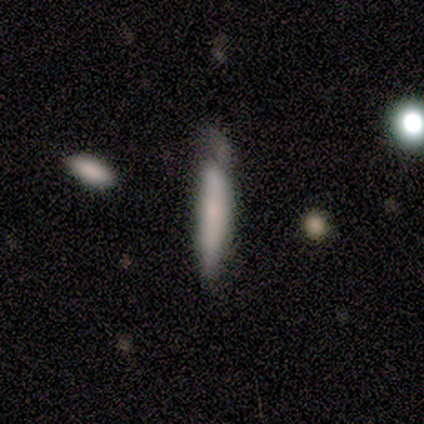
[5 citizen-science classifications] A smooth galaxy with no disk features (80%) that is cigar-shaped (100%). Merging: none (60%).